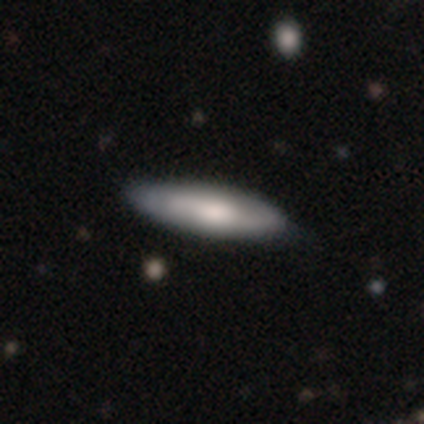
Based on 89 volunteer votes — Smooth or featured? 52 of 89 (58%) said smooth. How rounded? 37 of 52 (71%) said cigar-shaped. Merging? 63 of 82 (77%) said none.